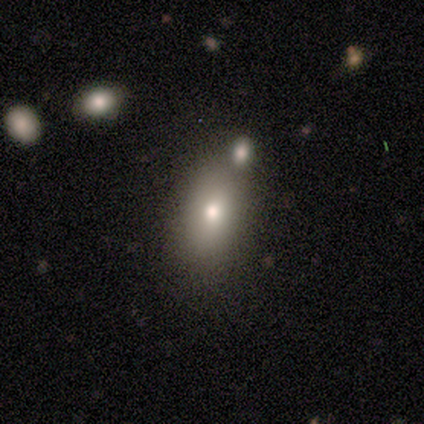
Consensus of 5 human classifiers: A smooth galaxy with no disk features (80%) that is in between round and cigar-shaped (75%). Merging: none (60%).